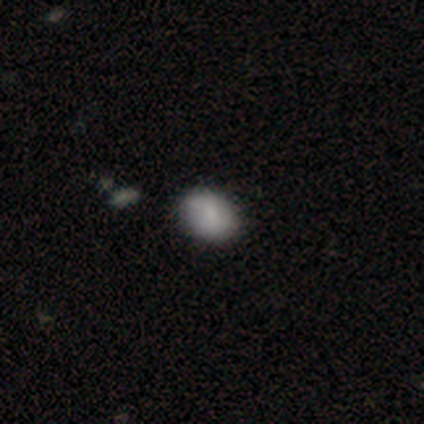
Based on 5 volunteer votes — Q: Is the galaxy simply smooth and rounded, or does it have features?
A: smooth — 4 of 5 (80%).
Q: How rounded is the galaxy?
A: in between — 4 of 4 (100%).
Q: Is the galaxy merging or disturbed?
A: none — 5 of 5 (100%).